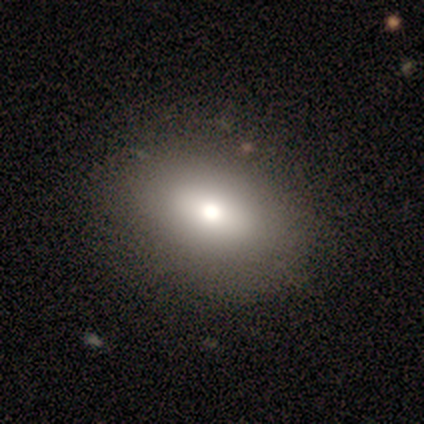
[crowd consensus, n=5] smooth_or_featured: smooth (p=0.80) [alt: star or artifact p=0.20]
how_rounded: in between (p=0.75) [alt: round p=0.25]
merging: none (p=1.00)